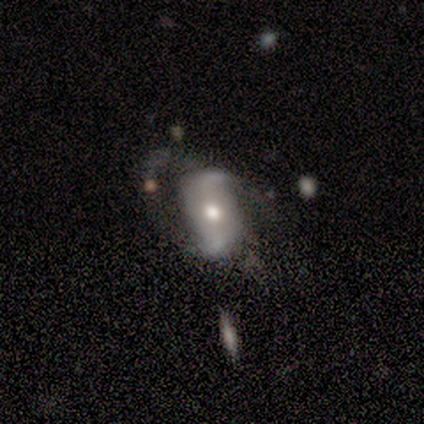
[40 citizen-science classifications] featured or disk 78%, smooth 20%, star or artifact 2%. Down the decision tree: edge-on disk — no (94%); bar — weak (48%); spiral arms — yes (93%); spiral arm count — 2 (93%); spiral winding — loose (67%); bulge size — moderate (83%); merging — none (33%).